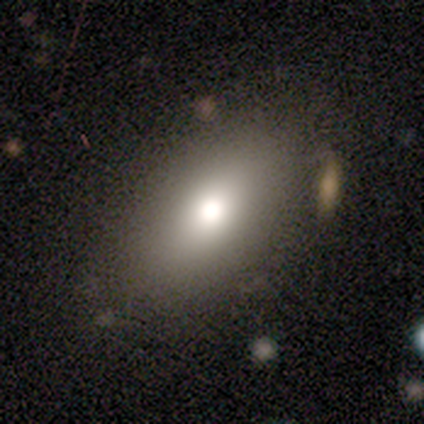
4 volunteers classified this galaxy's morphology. Q: Smooth or featured?
A: smooth (100%)
Q: How rounded?
A: in between (75%); runner-up: cigar-shaped (25%)
Q: Merging?
A: none (50%); tied with: major disturbance (50%)